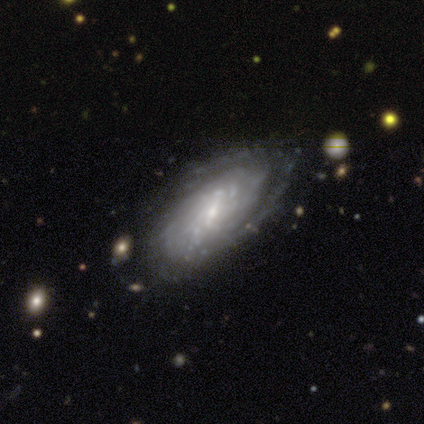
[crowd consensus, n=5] smooth_or_featured: featured or disk (p=1.00)
disk_edge_on: no (p=1.00)
bar: weak (p=0.80) [alt: no p=0.20]
has_spiral_arms: yes (p=1.00)
spiral_winding: medium (p=0.80) [alt: tight p=0.20]
spiral_arm_count: more than 4 (p=0.40) [tied with: can't tell p=0.40]
bulge_size: small (p=0.80) [alt: moderate p=0.20]
merging: none (p=0.80) [alt: minor disturbance p=0.20]